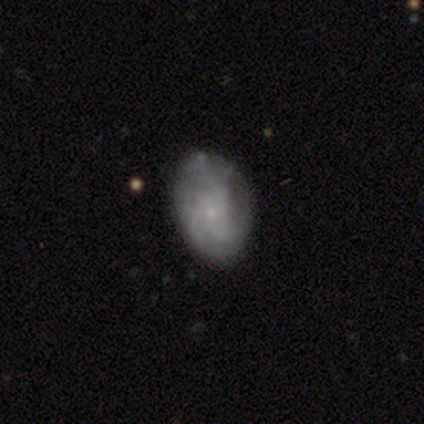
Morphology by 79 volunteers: Smooth or featured? featured or disk (77%)
Edge-on disk? no (100%)
Bar? no (92%)
Spiral arms? yes (79%)
Spiral winding? tight (48%)
Spiral arm count? can't tell (48%)
Bulge size? small (85%)
Merging? none (36%)